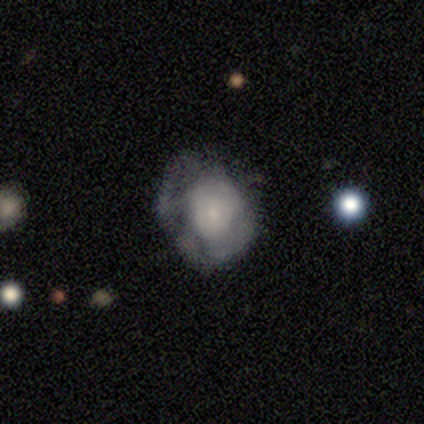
This is possibly a featured or disk galaxy (57%). It is clearly not viewed edge-on (100%). Bar: clearly no (97%). Spiral arm pattern: likely no (79%). Central bulge: clearly small (86%). Merging: marginally none (39%).